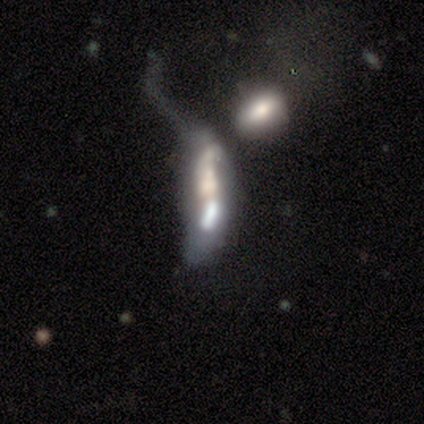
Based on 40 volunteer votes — Smooth or featured: featured or disk — 55% (smooth — 32%)
Edge-on disk: no — 95% (yes — 5%)
Bar: no — 71% (strong — 14%)
Spiral arms: no — 57% (yes — 43%)
Bulge size: none — 33% (large — 24%)
Merging: merger — 71% (major disturbance — 23%)